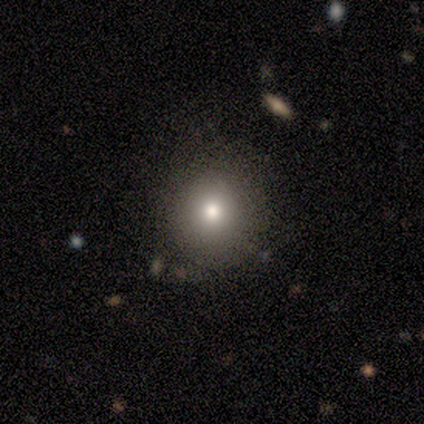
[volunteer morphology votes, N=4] Smooth or featured?
  - smooth: 100% *
  - featured or disk: 0%
  - star or artifact: 0%
How rounded?
  - round: 75% *
  - in between: 25%
  - cigar-shaped: 0%
Merging?
  - none: 75% *
  - major disturbance: 25%
  - minor disturbance: 0%
  - merger: 0%